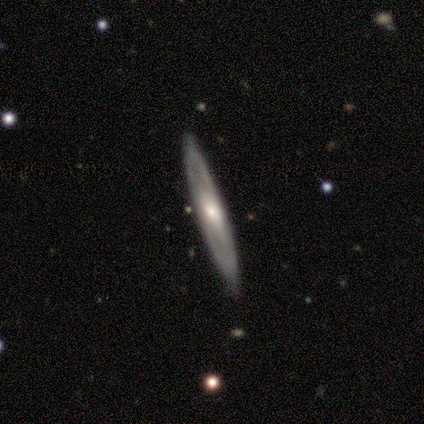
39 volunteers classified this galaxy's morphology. type=featured or disk (74%); edge-on=yes (69%); edge-on bulge=rounded (75%); merging=none (86%).